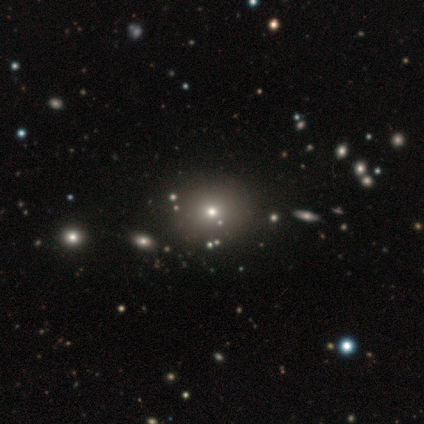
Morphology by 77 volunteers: smooth_or_featured: smooth (p=0.68) [alt: star or artifact p=0.26]
how_rounded: round (p=0.81) [alt: in between p=0.19]
merging: none (p=0.47) [alt: minor disturbance p=0.05]